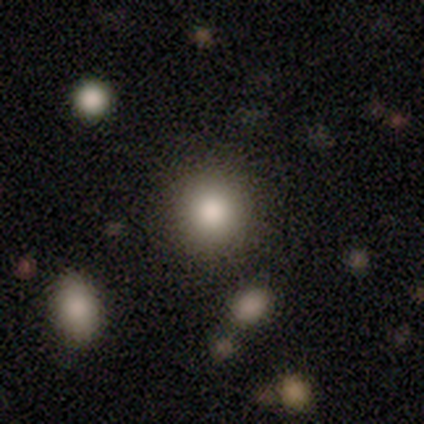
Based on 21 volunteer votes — Q: Smooth or featured?
A: smooth (81%); runner-up: star or artifact (14%)
Q: How rounded?
A: round (100%)
Q: Merging?
A: none (94%); runner-up: minor disturbance (6%)